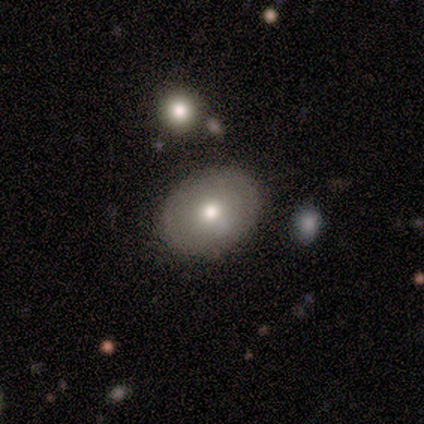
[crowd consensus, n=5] smooth_or_featured: smooth (p=0.60) [alt: featured or disk p=0.40]
how_rounded: in between (p=1.00)
merging: none (p=0.80) [alt: minor disturbance p=0.20]